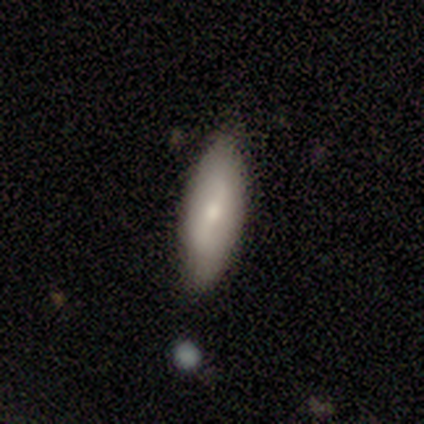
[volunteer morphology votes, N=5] smooth 60%, featured or disk 40%, star or artifact 0%. Down the decision tree: how rounded — cigar-shaped (100%); merging — minor disturbance (60%).